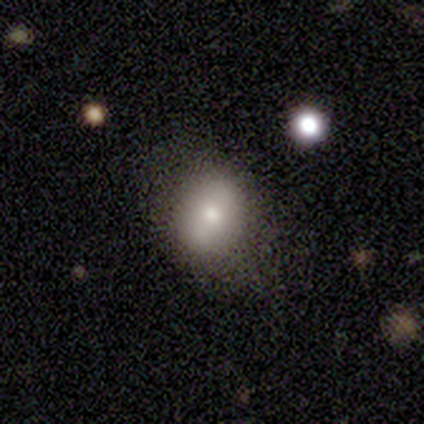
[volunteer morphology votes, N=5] This is marginally a smooth galaxy (40%, tied with star or artifact). How rounded: possibly round (50%, tied with in between). Merging: clearly none (100%).